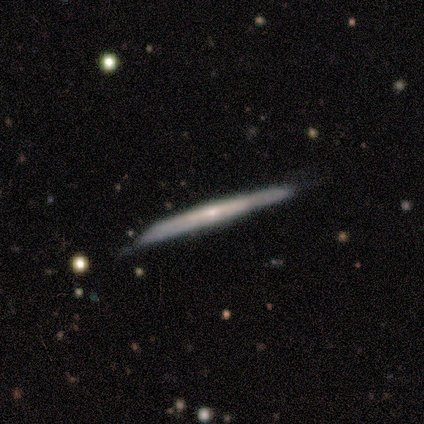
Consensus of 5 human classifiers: smooth_or_featured: featured or disk (p=1.00)
disk_edge_on: yes (p=1.00)
edge_on_bulge: none (p=0.60) [alt: boxy p=0.20]
merging: none (p=0.60) [alt: minor disturbance p=0.40]